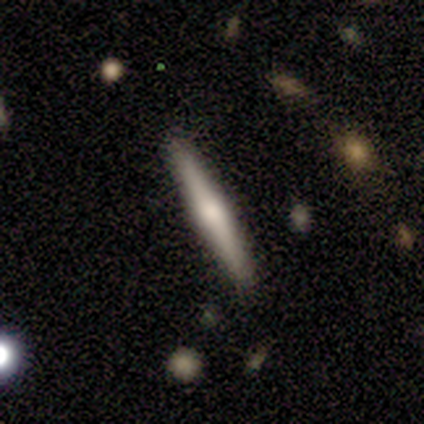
A smooth galaxy with no disk features (60%) that is cigar-shaped (100%).

Vote fractions:
- Smooth or featured? smooth: 60% / featured or disk: 40% / star or artifact: 0%
- How rounded? cigar-shaped: 100% / round: 0% / in between: 0%
- Merging? none: 80% / minor disturbance: 20% / major disturbance: 0% / merger: 0%